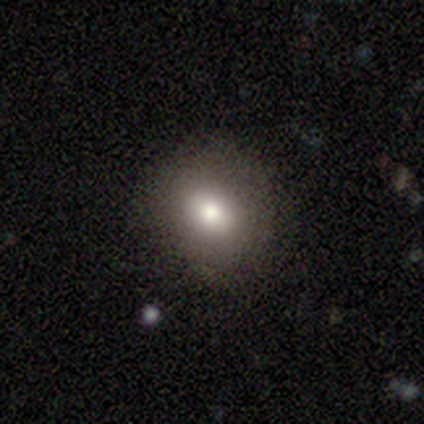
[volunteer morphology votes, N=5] A smooth galaxy with no disk features (100%) that is in between round and cigar-shaped (60%).

Vote fractions:
- Smooth or featured? smooth: 100% / featured or disk: 0% / star or artifact: 0%
- How rounded? in between: 60% / round: 40% / cigar-shaped: 0%
- Merging? none: 80% / minor disturbance: 20% / major disturbance: 0% / merger: 0%